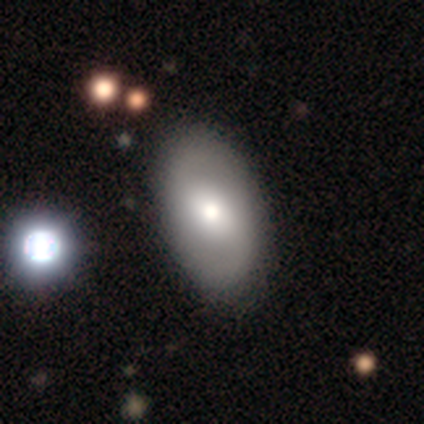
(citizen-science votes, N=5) Overall: smooth (80%). How rounded: in between (100%). Merging: none (100%).